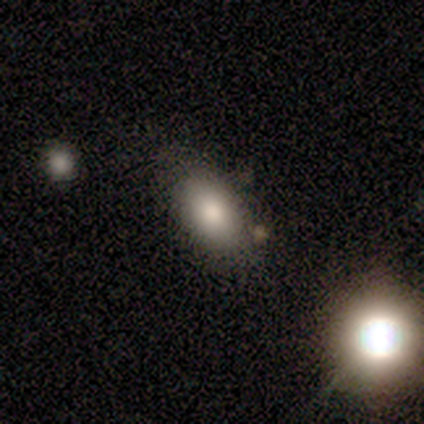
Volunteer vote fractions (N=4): This appears to be a smooth galaxy with no disk features (100%) that is in between round and cigar-shaped (75%). Merging: none (25%, tied with minor disturbance, major disturbance and merger).